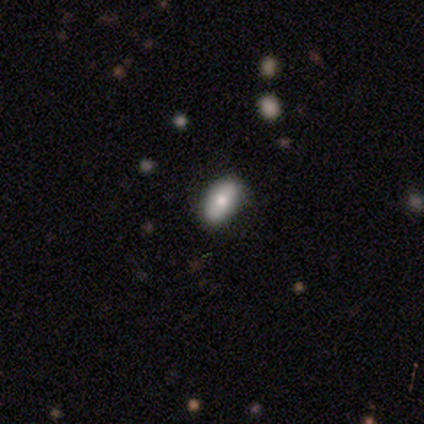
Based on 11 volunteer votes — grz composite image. It shows a smooth galaxy with no disk features (82%) that is in between round and cigar-shaped (78%). Merging: none (80%).